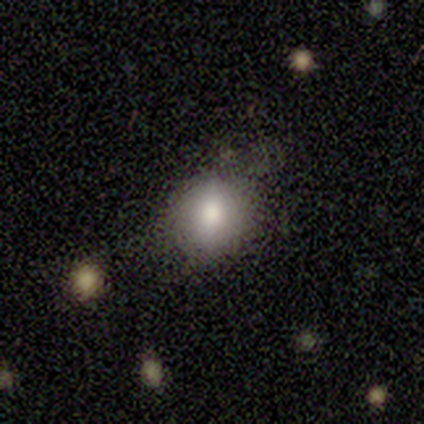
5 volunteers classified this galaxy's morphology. Smooth or featured: smooth — 80% (featured or disk — 20%)
How rounded: round — 50% (tied with in between — 50%)
Merging: none — 40% (tied with major disturbance — 40%)